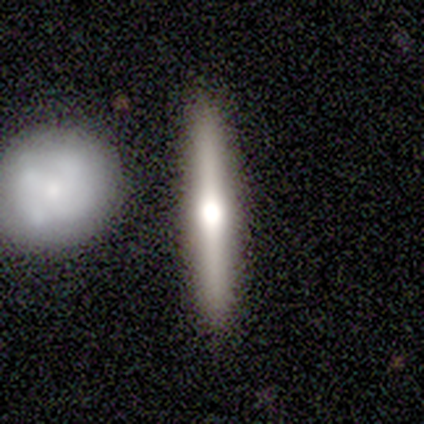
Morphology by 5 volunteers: Volunteers were most divided on "smooth or featured": featured or disk: 60%, smooth: 20%, star or artifact: 20%. More confident: edge-on disk — yes (100%); edge-on bulge — rounded (100%); merging — none (100%).